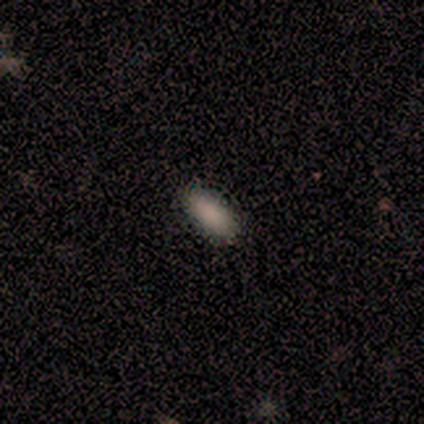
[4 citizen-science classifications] Smooth or featured: smooth — 100%
How rounded: in between — 75% (cigar-shaped — 25%)
Merging: none — 75% (minor disturbance — 25%)